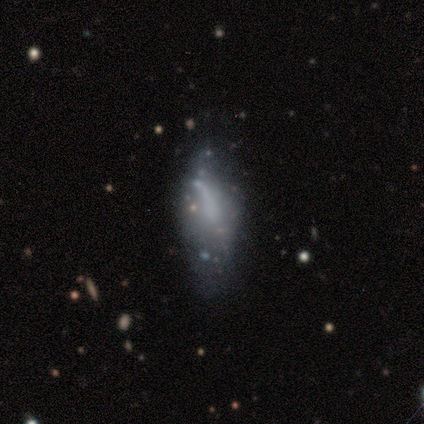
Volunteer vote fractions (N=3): Q: Smooth or featured?
A: smooth (67%); runner-up: star or artifact (33%)
Q: How rounded?
A: in between (50%); tied with: cigar-shaped (50%)
Q: Merging?
A: minor disturbance (50%); tied with: major disturbance (50%)